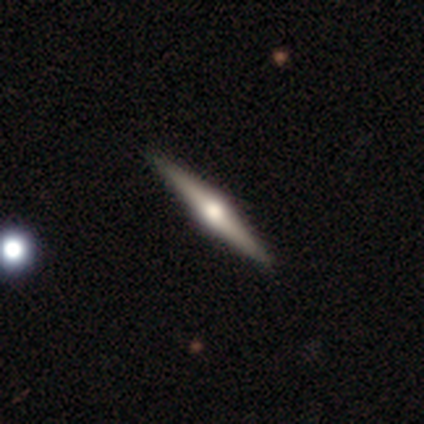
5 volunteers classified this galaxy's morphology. smooth_or_featured: featured or disk (p=1.00)
disk_edge_on: yes (p=1.00)
edge_on_bulge: rounded (p=1.00)
merging: none (p=1.00)